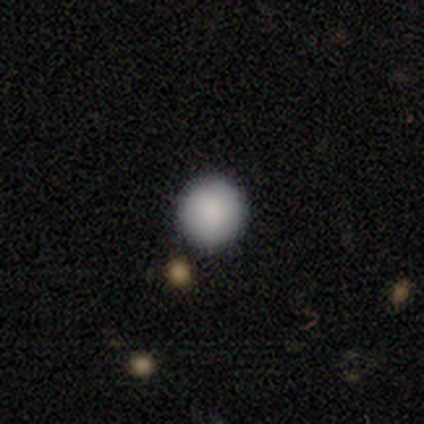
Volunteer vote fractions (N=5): smooth 60%, featured or disk 20%, star or artifact 20%. Down the decision tree: how rounded — round (100%); merging — none (100%).